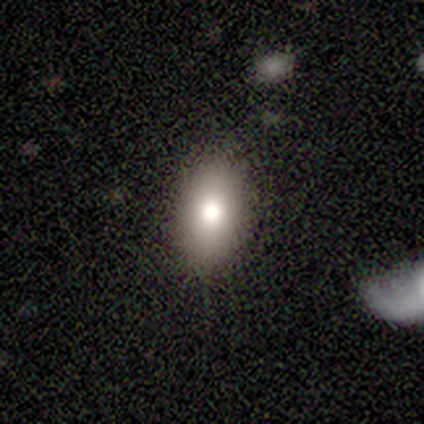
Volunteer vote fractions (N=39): smooth 79%, featured or disk 13%, star or artifact 8%. Down the decision tree: how rounded — in between (94%); merging — none (89%).